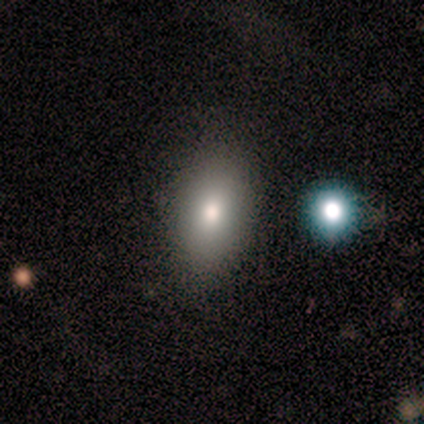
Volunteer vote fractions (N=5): Q: Smooth or featured?
A: smooth (40%); tied with: featured or disk (40%)
Q: How rounded?
A: round (50%); tied with: in between (50%)
Q: Merging?
A: none (100%)